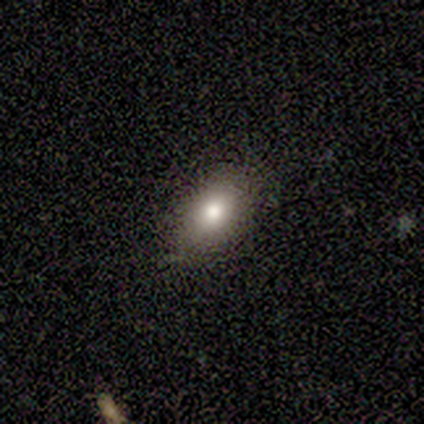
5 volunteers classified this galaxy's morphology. Smooth or featured? smooth (100%)
How rounded? in between (100%)
Merging? none (60%)